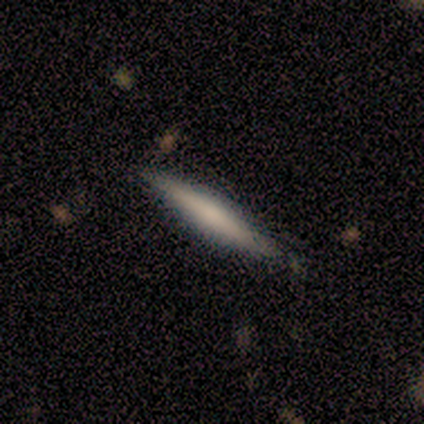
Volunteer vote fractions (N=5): A smooth galaxy with no disk features (80%) that is cigar-shaped (100%). Merging: none (60%).